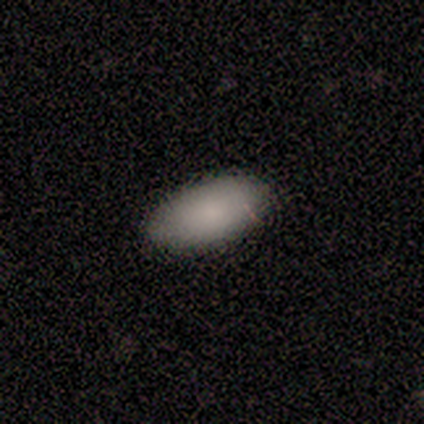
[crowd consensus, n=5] Morphology: type=smooth (80%); roundness=in between (100%); merging=none (60%).